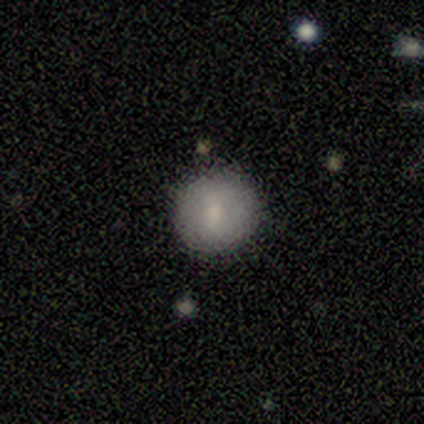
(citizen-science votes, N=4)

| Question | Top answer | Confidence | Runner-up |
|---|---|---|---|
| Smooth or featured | smooth | 75% | featured or disk (25%) |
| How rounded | round | 100% | — |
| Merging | none | 100% | — |